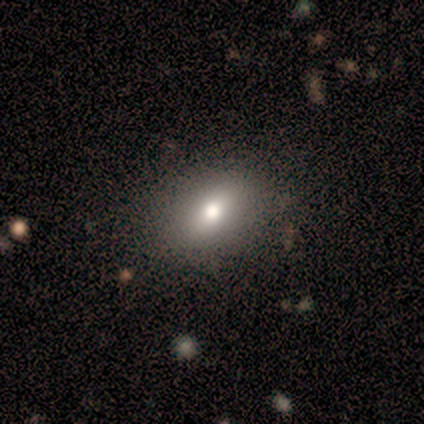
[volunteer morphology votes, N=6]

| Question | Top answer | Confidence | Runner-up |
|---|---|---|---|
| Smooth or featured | smooth | 67% | featured or disk (17%) |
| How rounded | in between | 100% | — |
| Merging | none | 80% | minor disturbance (20%) |